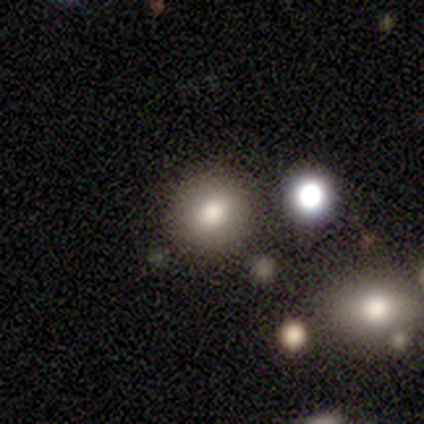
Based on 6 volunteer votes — Overall: smooth (83%). How rounded: round (100%). Merging: none (100%).